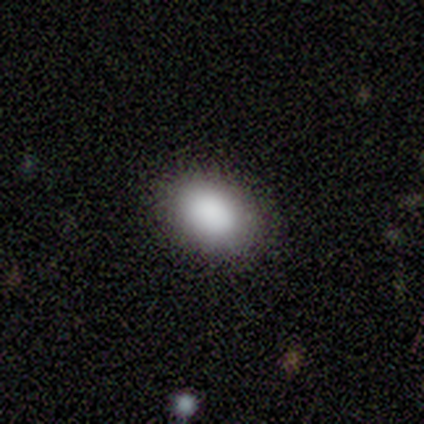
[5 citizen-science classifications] Smooth or featured? 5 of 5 (100%) said smooth. How rounded? 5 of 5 (100%) said in between. Merging? 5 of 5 (100%) said none.